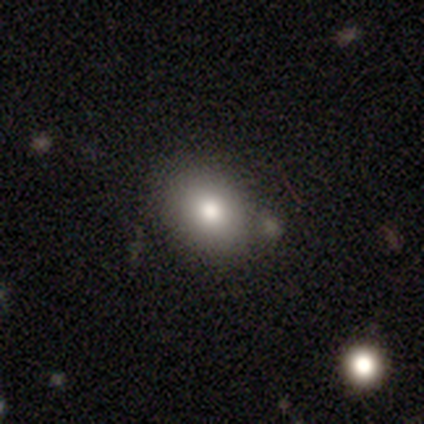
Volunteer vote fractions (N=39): Overall: smooth (87%). How rounded: in between (68%; round 32%). Merging: none (65%).